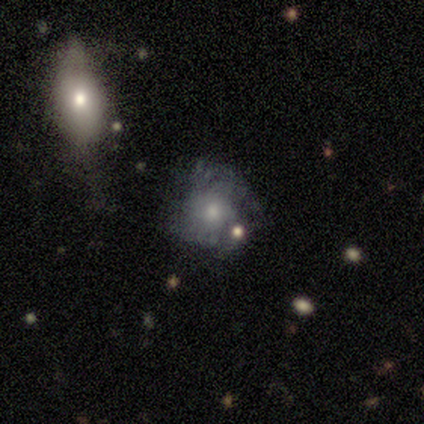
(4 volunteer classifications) Morphology: type=smooth (50%, tied with featured or disk); roundness=round (100%); merging=none (75%).